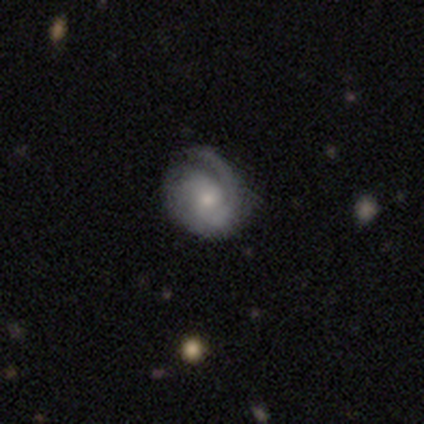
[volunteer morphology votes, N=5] Smooth or featured?
  - featured or disk: 80% *
  - smooth: 20%
  - star or artifact: 0%
Edge-on disk?
  - no: 100% *
  - yes: 0%
Bar?
  - no: 75% *
  - weak: 25%
  - strong: 0%
Spiral arms?
  - yes: 100% *
  - no: 0%
Spiral winding?
  - tight: 75% *
  - medium: 25%
  - loose: 0%
Spiral arm count?
  - 2: 50% *
  - 3: 25%
  - can't tell: 25%
  - 1: 0%
  - 4: 0%
  - more than 4: 0%
Bulge size?
  - moderate: 50% * (tied)
  - small: 50% * (tied)
  - dominant: 0%
  - large: 0%
  - none: 0%
Merging?
  - none: 80% *
  - minor disturbance: 20%
  - major disturbance: 0%
  - merger: 0%